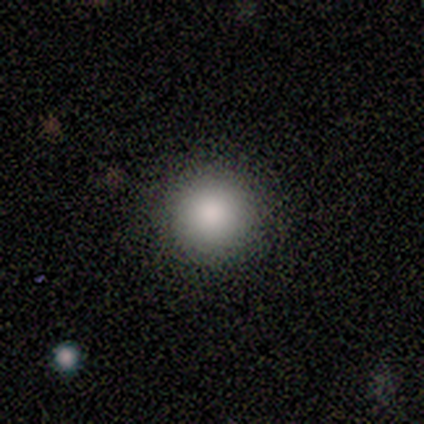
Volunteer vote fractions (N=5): Smooth or featured? smooth (60%)
How rounded? round (100%)
Merging? none (100%)